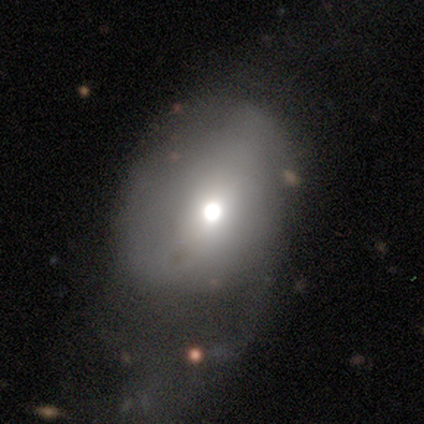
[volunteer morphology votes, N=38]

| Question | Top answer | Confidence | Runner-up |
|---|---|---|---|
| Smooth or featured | smooth | 61% | featured or disk (29%) |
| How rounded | in between | 65% | round (35%) |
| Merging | major disturbance | 62% | minor disturbance (24%) |